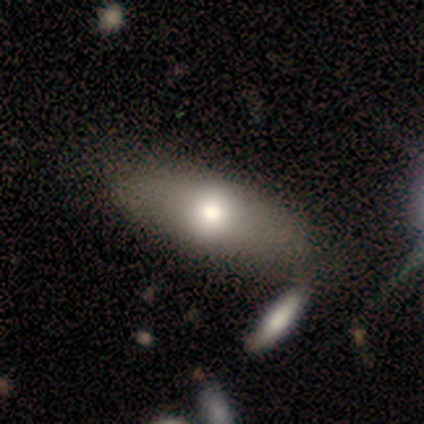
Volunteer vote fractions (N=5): Q: Smooth or featured?
A: smooth (80%); runner-up: featured or disk (20%)
Q: How rounded?
A: in between (100%)
Q: Merging?
A: none (100%)